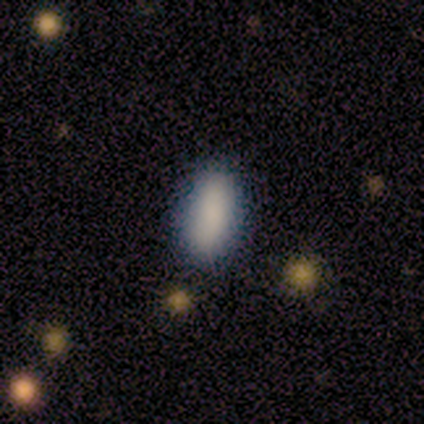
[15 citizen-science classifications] Smooth or featured? smooth (87%)
How rounded? in between (85%)
Merging? none (85%)